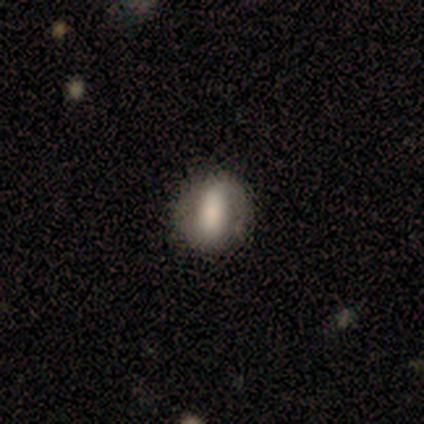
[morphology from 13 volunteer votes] Q: Smooth or featured?
A: smooth (69%); runner-up: featured or disk (23%)
Q: How rounded?
A: round (56%); runner-up: in between (44%)
Q: Merging?
A: none (75%); runner-up: minor disturbance (17%)